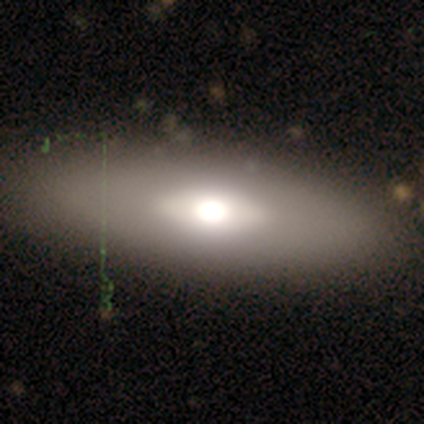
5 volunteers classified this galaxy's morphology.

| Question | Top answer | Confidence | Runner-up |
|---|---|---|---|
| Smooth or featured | smooth | 60% | featured or disk (40%) |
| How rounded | in between | 100% | — |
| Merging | none | 80% | merger (20%) |